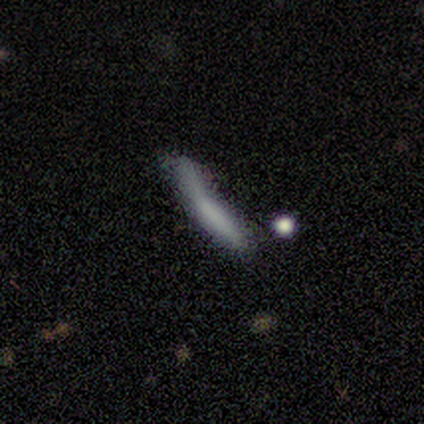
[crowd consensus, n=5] A smooth galaxy with no disk features (60%) that is cigar-shaped (100%).

Vote fractions:
- Smooth or featured? smooth: 60% / featured or disk: 20% / star or artifact: 20%
- How rounded? cigar-shaped: 100% / round: 0% / in between: 0%
- Merging? minor disturbance: 50% / none: 25% / merger: 25% / major disturbance: 0%